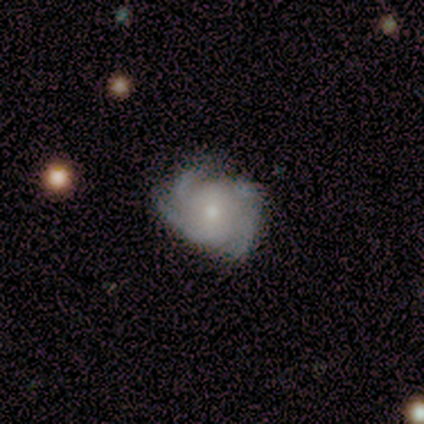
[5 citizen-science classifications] Q: Smooth or featured?
A: featured or disk (100%)
Q: Edge-on disk?
A: no (100%)
Q: Bar?
A: weak (40%); tied with: no (40%)
Q: Spiral arms?
A: yes (100%)
Q: Spiral winding?
A: medium (60%); runner-up: tight (20%)
Q: Spiral arm count?
A: 3 (40%); runner-up: 2 (20%)
Q: Bulge size?
A: small (100%)
Q: Merging?
A: none (80%); runner-up: minor disturbance (20%)